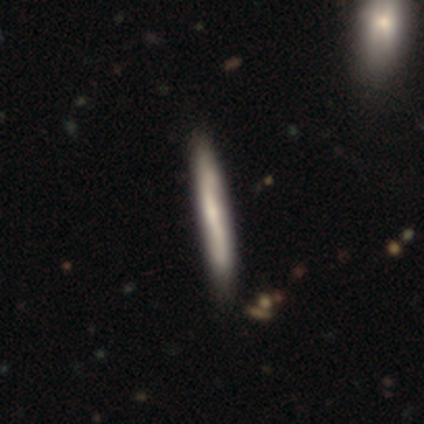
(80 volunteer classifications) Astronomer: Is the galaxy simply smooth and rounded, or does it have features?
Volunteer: smooth — 60%.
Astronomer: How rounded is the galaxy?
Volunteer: cigar-shaped — 98%.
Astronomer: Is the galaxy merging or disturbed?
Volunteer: none — 40%.